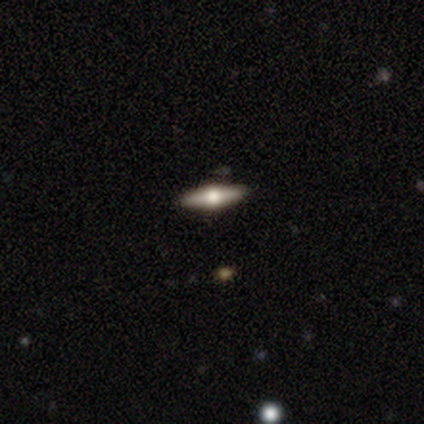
smooth_or_featured: smooth (p=0.60) [alt: featured or disk p=0.40]
how_rounded: cigar-shaped (p=1.00)
merging: none (p=0.80) [alt: minor disturbance p=0.20]